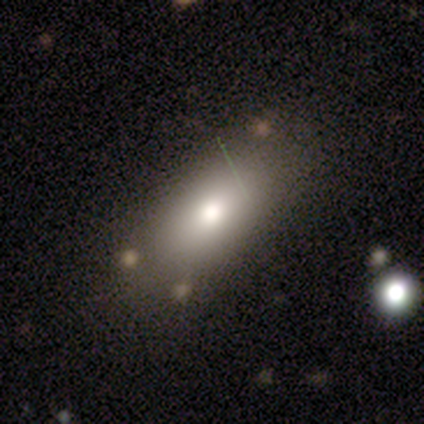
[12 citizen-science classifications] Morphology: type=smooth (83%); roundness=in between (100%); merging=none (58%).